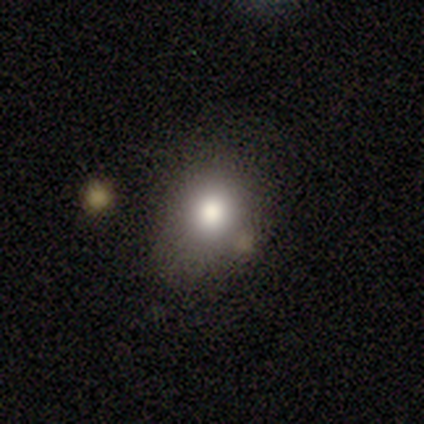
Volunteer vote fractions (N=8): A smooth galaxy with no disk features (100%) that is round (50%, tied with in between).

Vote fractions:
- Smooth or featured? smooth: 100% / featured or disk: 0% / star or artifact: 0%
- How rounded? round: 50% (tied) / in between: 50% (tied) / cigar-shaped: 0%
- Merging? none: 75% / minor disturbance: 25% / major disturbance: 0% / merger: 0%